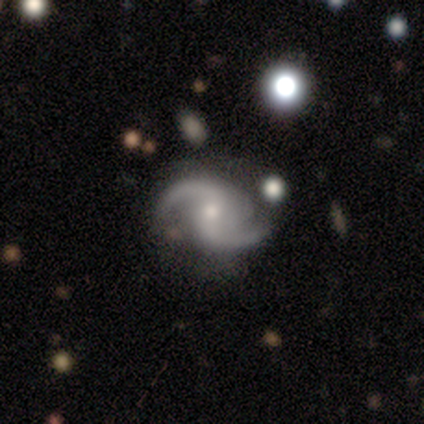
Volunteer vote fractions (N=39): Overall: featured or disk (87%). Edge-on disk: no (100%). Bar: weak (53%; no 44%). Spiral arms: yes (100%). Spiral arm count: 2 (85%). Spiral winding: loose (53%; medium 38%). Bulge size: moderate (53%; small 41%). Merging: none (67%).